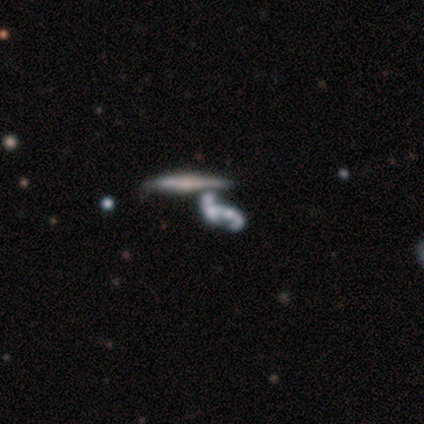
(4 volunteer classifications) Q: Smooth or featured?
A: featured or disk (50%); runner-up: smooth (25%)
Q: Edge-on disk?
A: yes (50%); tied with: no (50%)
Q: Edge-on bulge?
A: none (100%)
Q: Merging?
A: none (67%); runner-up: merger (33%)